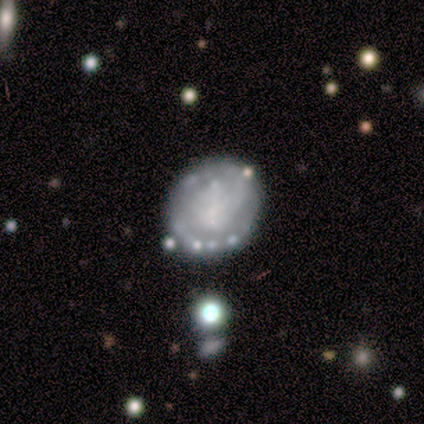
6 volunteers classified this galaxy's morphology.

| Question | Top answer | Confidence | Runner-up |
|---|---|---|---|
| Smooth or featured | smooth | 50% | featured or disk (33%) |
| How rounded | round | 67% | in between (33%) |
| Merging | none | 60% | minor disturbance (20%) |